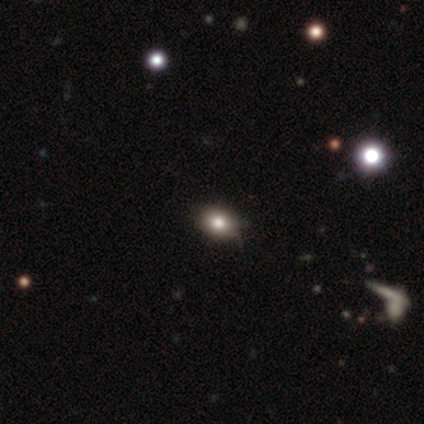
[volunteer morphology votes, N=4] Smooth or featured? smooth (75%)
How rounded? round (33%, tied with in between and cigar-shaped)
Merging? none (100%)